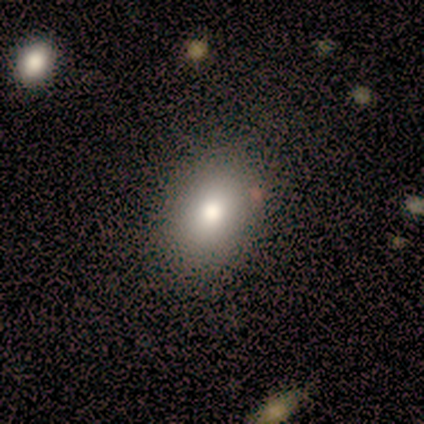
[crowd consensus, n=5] Smooth or featured: smooth — 100%
How rounded: in between — 100%
Merging: none — 100%